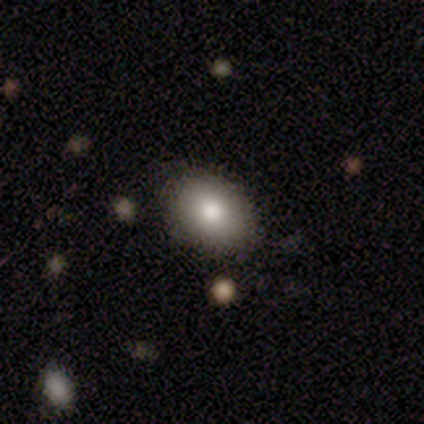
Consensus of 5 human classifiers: Overall: smooth (80%). How rounded: in between (75%). Merging: none (100%).